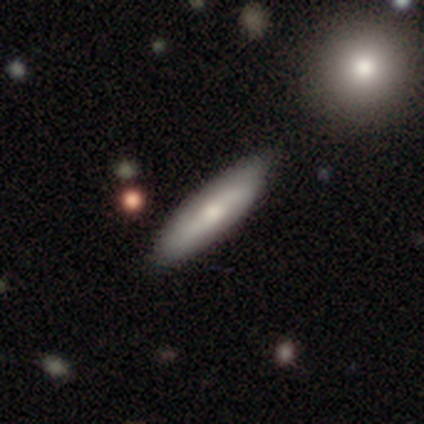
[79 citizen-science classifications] Overall: smooth (56%; featured or disk 39%). How rounded: cigar-shaped (80%). Merging: none (52%).